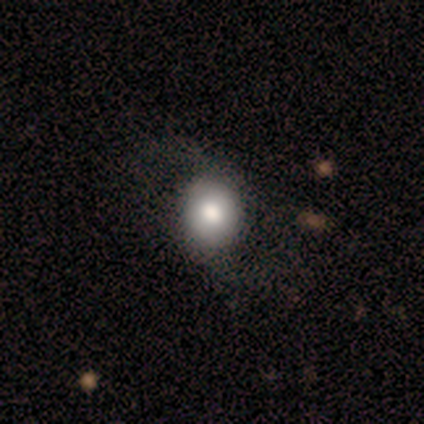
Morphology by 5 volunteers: Q: Smooth or featured?
A: smooth (40%); tied with: featured or disk (40%)
Q: How rounded?
A: round (100%)
Q: Merging?
A: none (75%); runner-up: major disturbance (25%)